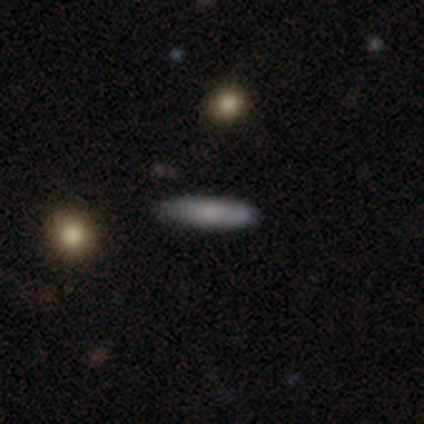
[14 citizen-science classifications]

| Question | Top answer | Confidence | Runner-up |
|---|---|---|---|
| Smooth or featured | smooth | 86% | featured or disk (14%) |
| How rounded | cigar-shaped | 83% | in between (17%) |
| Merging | none | 93% | minor disturbance (7%) |